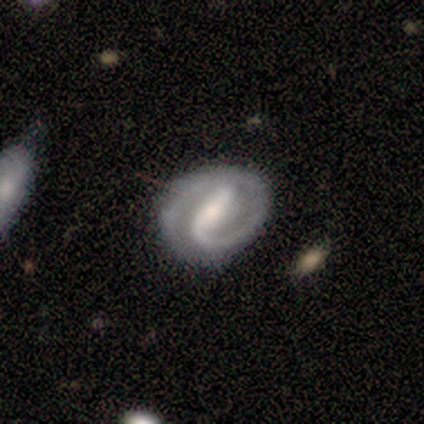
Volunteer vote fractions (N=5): This is clearly a featured or disk galaxy (100%). It is clearly not viewed edge-on (100%). Bar: likely weak (60%). Spiral arm pattern: clearly yes (80%). Spiral arm count: likely 2 (75%). Spiral winding: likely medium (75%). Central bulge: likely small (60%). Merging: likely none (60%).